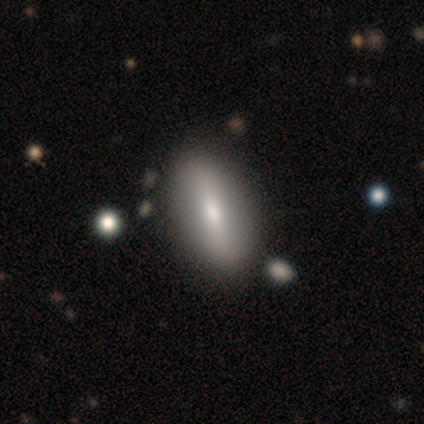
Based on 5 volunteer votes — This appears to be a smooth galaxy with no disk features (60%) that is in between round and cigar-shaped (100%). Merging: none (100%).